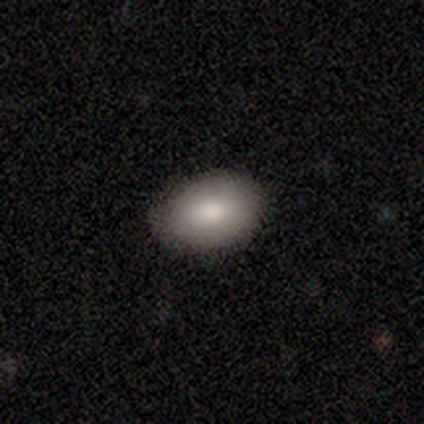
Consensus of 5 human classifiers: Q: Smooth or featured?
A: smooth (80%); runner-up: featured or disk (20%)
Q: How rounded?
A: in between (100%)
Q: Merging?
A: none (60%); runner-up: minor disturbance (40%)